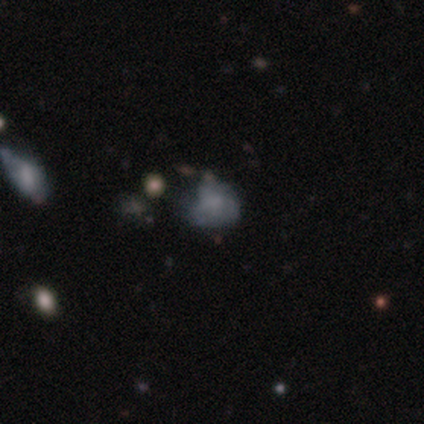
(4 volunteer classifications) smooth 75%, star or artifact 25%, featured or disk 0%. Down the decision tree: how rounded — in between (100%); merging — minor disturbance (67%).